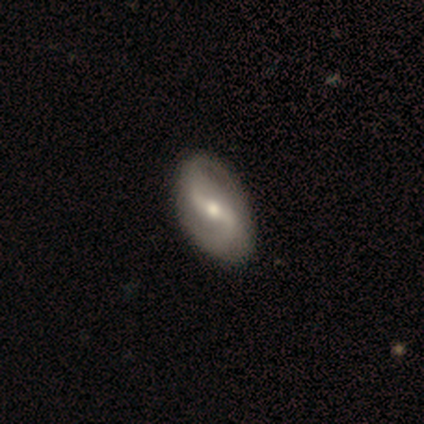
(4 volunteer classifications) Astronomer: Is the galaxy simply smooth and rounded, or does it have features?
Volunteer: featured or disk — 75%.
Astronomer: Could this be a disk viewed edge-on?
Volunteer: no — 67%.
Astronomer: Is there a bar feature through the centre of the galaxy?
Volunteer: strong — 50%, tied with weak at 50%.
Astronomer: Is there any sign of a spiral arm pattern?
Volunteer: yes — 100%.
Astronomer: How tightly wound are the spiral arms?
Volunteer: tight — 50%, tied with loose at 50%.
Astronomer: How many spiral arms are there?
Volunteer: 2 — 100%.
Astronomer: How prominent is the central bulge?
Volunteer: moderate — 50%, tied with small at 50%.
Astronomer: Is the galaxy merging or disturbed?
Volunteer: none — 67%.